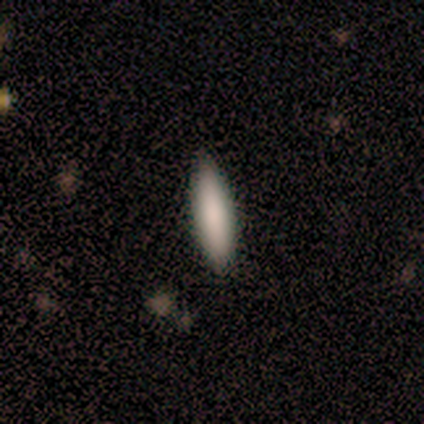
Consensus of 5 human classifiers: smooth_or_featured: smooth (p=0.60) [alt: featured or disk p=0.20]
how_rounded: in between (p=0.67) [alt: cigar-shaped p=0.33]
merging: none (p=1.00)